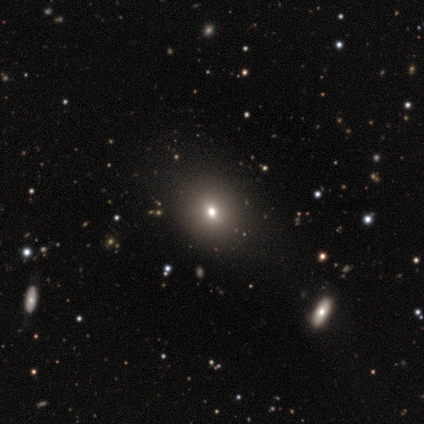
Overall: smooth (48%; star or artifact 42%). How rounded: round (63%; in between 32%). Merging: none (87%).